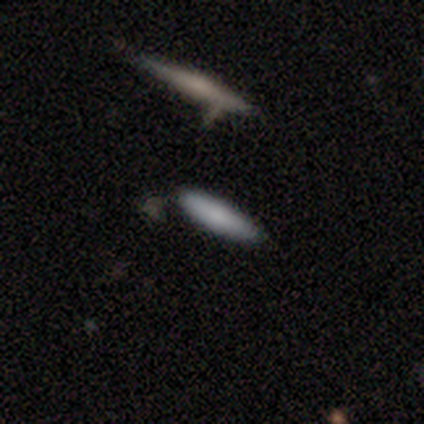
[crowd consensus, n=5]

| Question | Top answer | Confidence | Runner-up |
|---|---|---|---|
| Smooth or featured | smooth | 100% | — |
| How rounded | cigar-shaped | 80% | in between (20%) |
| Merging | none | 80% | minor disturbance (20%) |